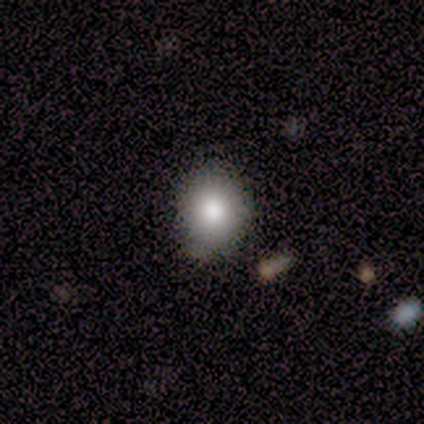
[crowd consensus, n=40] Smooth or featured? smooth (85%)
How rounded? round (65%)
Merging? none (76%)